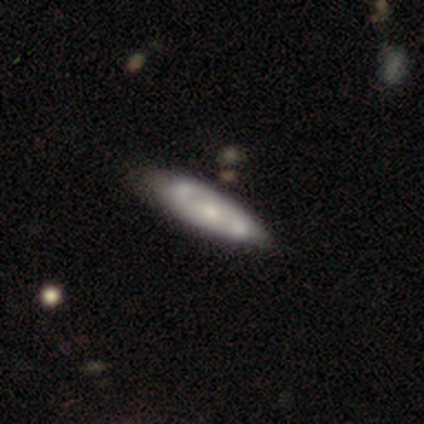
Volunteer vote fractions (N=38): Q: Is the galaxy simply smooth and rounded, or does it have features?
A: featured or disk — 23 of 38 (61%).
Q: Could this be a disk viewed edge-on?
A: no — 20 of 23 (87%).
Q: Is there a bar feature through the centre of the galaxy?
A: weak — 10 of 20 (50%).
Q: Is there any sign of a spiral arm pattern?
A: yes — 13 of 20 (65%).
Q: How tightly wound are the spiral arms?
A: tight — 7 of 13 (54%).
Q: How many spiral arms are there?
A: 2 — 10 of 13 (77%).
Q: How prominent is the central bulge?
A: moderate — 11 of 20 (55%).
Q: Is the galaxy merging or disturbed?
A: none — 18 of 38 (47%).